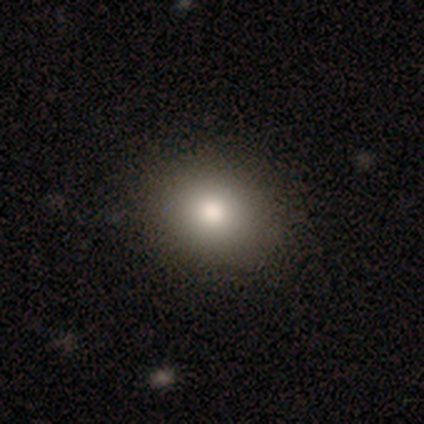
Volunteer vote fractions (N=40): smooth_or_featured: smooth (p=0.70) [alt: featured or disk p=0.20]
how_rounded: round (p=0.54) [alt: in between p=0.46]
merging: none (p=0.92) [alt: minor disturbance p=0.06]